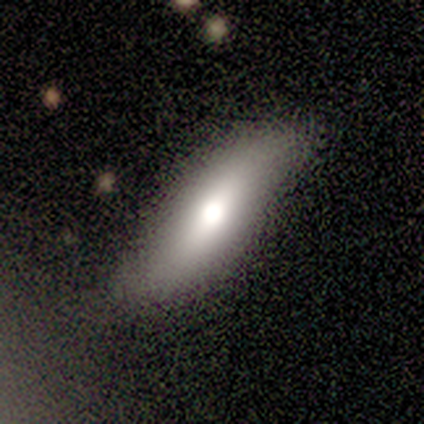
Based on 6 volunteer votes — smooth-or-featured: smooth: 83% | featured or disk: 17% | star or artifact: 0%
  how-rounded: cigar-shaped: 60% | in between: 40% | round: 0%
  merging: none: 50% (tied) | minor disturbance: 50% (tied) | major disturbance: 0% | merger: 0%